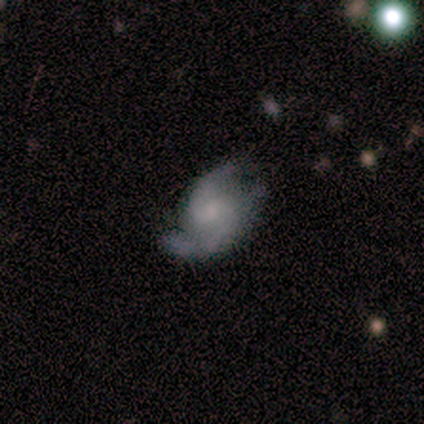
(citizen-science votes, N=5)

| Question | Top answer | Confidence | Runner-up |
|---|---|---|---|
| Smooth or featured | featured or disk | 80% | star or artifact (20%) |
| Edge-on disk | no | 100% | — |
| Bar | no | 75% | weak (25%) |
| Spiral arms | yes | 100% | — |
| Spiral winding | medium | 50% | tight (25%) |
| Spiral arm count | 2 | 50% | 3 (25%) |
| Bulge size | none | 75% | small (25%) |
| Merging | none | 50% | minor disturbance (25%) |